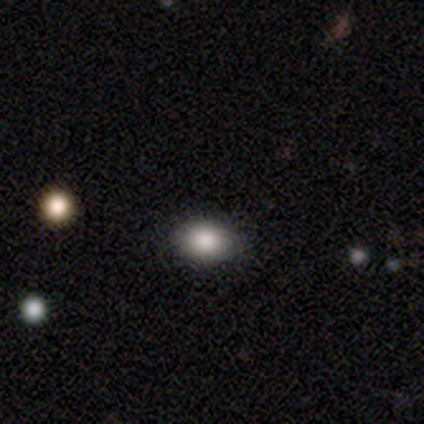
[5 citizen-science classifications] smooth_or_featured: smooth (p=1.00)
how_rounded: in between (p=1.00)
merging: none (p=1.00)